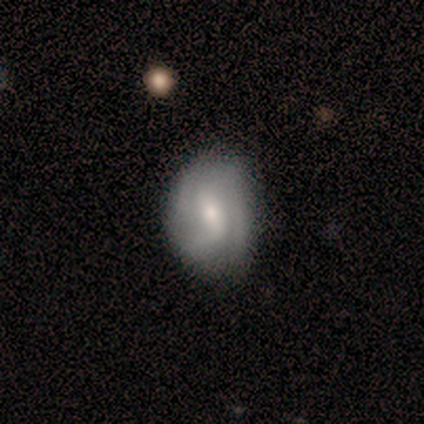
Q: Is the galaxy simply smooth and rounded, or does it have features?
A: featured or disk — 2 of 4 (50%).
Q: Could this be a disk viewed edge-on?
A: no — 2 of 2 (100%).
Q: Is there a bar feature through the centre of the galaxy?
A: weak — 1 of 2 (50%, tied with no).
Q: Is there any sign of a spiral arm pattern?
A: yes — 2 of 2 (100%).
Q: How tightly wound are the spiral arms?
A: tight — 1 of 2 (50%, tied with medium).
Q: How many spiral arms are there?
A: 3 — 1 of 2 (50%, tied with can't tell).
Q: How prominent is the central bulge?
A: moderate — 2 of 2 (100%).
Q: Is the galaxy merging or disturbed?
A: none — 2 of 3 (67%).